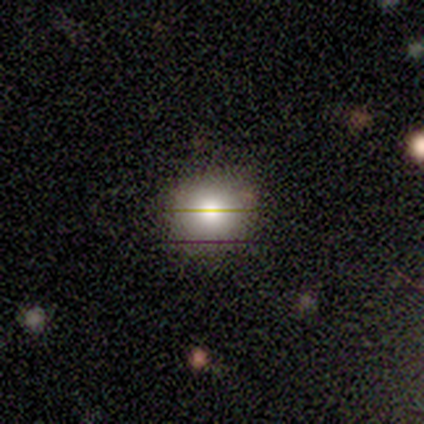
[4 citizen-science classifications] Smooth or featured?
  - smooth: 75% *
  - star or artifact: 25%
  - featured or disk: 0%
How rounded?
  - in between: 67% *
  - round: 33%
  - cigar-shaped: 0%
Merging?
  - none: 67% *
  - minor disturbance: 33%
  - major disturbance: 0%
  - merger: 0%